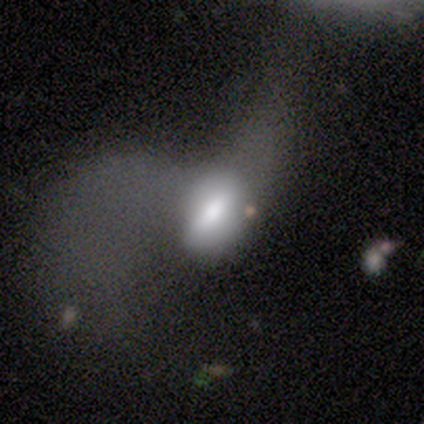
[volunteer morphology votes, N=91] smooth-or-featured: smooth: 56% | featured or disk: 36% | star or artifact: 8%
  how-rounded: in between: 94% | round: 6% | cigar-shaped: 0%
  merging: major disturbance: 67% | none: 13% | merger: 11% | minor disturbance: 10%